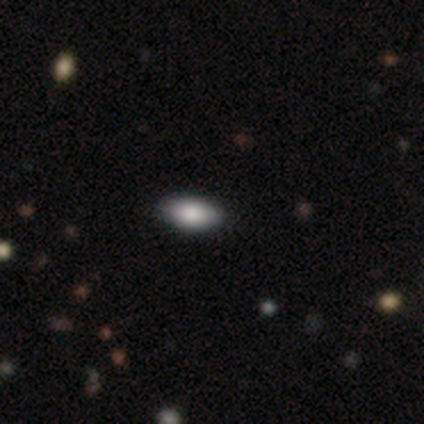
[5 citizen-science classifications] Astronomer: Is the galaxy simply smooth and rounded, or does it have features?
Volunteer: smooth — 40%, tied with featured or disk at 40%.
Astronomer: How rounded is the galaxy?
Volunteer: in between — 100%.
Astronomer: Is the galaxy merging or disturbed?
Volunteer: none — 75%.